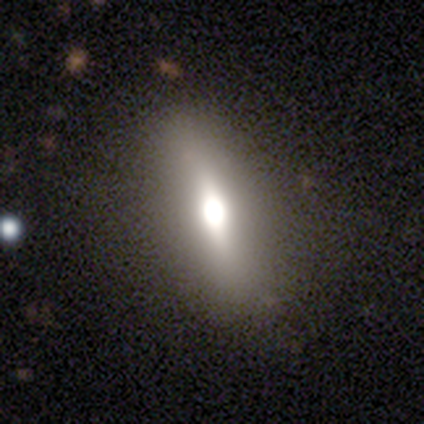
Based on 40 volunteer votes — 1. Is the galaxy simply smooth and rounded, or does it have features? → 40% featured or disk, 32% star or artifact, 28% smooth.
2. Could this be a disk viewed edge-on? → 56% yes, 44% no.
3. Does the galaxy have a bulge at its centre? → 78% rounded, 22% boxy, 0% none.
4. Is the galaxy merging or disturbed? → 96% none, 4% minor disturbance, 0% major disturbance, 0% merger.